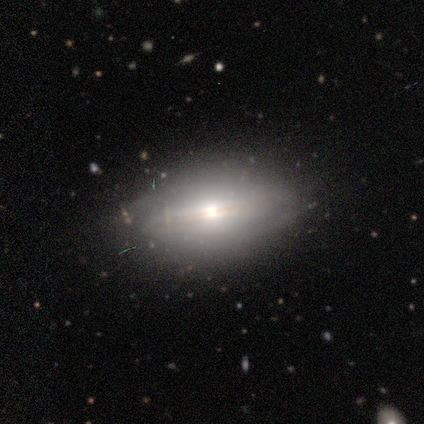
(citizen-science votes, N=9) Smooth or featured? 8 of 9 (89%) said featured or disk. Edge-on disk? 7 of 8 (88%) said yes. Edge-on bulge? 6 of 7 (86%) said rounded. Merging? 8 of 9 (89%) said none.